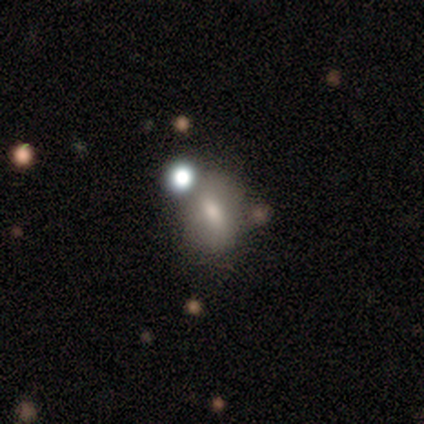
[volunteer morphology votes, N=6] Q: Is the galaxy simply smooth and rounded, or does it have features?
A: smooth — 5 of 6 (83%).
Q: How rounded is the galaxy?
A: in between — 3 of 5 (60%).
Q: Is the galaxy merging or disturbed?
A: none — 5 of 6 (83%).